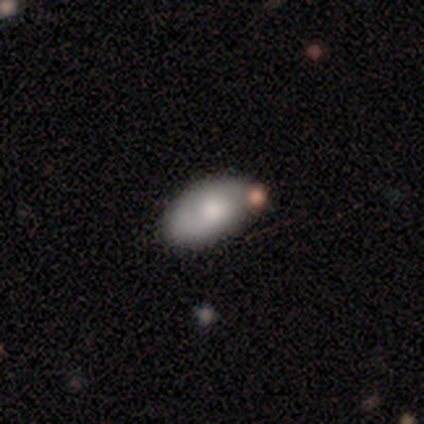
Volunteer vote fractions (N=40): smooth_or_featured: smooth (p=0.72) [alt: featured or disk p=0.23]
how_rounded: in between (p=0.90) [alt: cigar-shaped p=0.07]
merging: none (p=0.58) [alt: minor disturbance p=0.26]